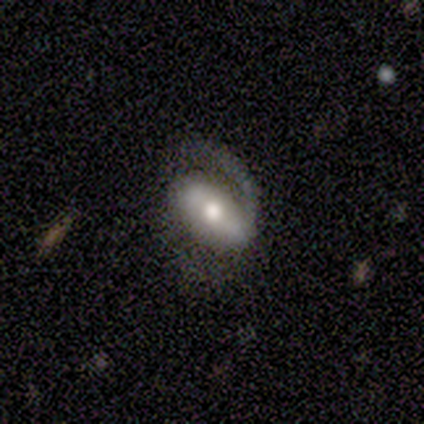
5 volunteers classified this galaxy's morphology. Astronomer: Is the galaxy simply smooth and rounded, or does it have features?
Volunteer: featured or disk — 80%.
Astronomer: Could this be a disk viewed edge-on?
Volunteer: no — 100%.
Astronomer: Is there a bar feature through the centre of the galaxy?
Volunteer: strong — 50%, tied with weak at 50%.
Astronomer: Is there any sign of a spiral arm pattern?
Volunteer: yes — 100%.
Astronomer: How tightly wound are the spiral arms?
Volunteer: medium — 50%, tied with loose at 50%.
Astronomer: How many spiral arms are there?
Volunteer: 1 — 75%.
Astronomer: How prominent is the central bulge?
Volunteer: moderate — 50%.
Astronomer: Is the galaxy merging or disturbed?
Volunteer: none — 50%.